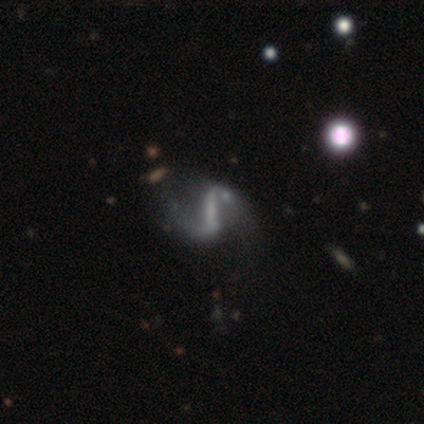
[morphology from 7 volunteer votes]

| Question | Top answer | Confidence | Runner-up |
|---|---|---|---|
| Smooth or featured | featured or disk | 86% | smooth (14%) |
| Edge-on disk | no | 100% | — |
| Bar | strong | 83% | no (17%) |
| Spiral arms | yes | 100% | — |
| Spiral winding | medium | 50% | tied: loose (50%) |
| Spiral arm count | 2 | 100% | — |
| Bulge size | none | 67% | small (33%) |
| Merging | none | 43% | minor disturbance (29%) |